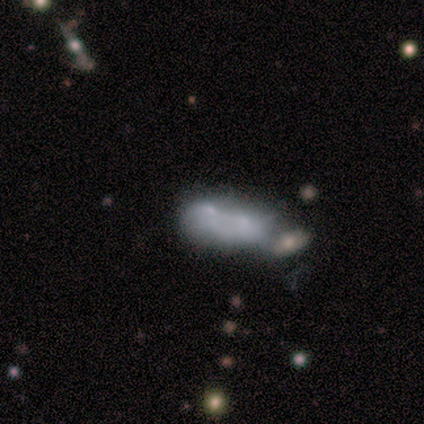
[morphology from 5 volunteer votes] This is likely a featured or disk galaxy (60%). It is clearly not viewed edge-on (100%). Bar: clearly no (100%). Spiral arm pattern: clearly no (100%). Central bulge: likely small (67%). Merging: likely merger (60%).